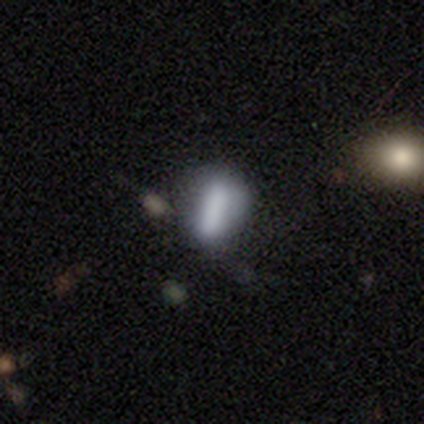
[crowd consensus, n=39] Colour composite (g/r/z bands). It shows a smooth galaxy with no disk features (64%) that is in between round and cigar-shaped (60%). Merging: none (71%).